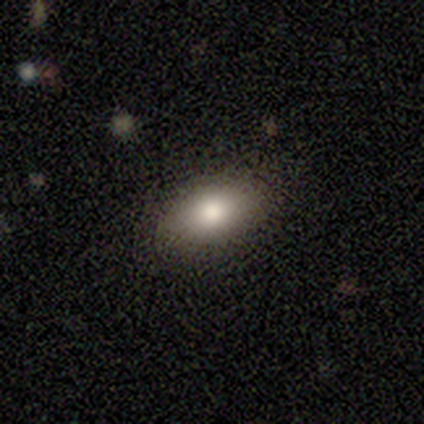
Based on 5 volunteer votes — smooth 60%, featured or disk 20%, star or artifact 20%. Down the decision tree: how rounded — in between (67%); merging — none (75%).